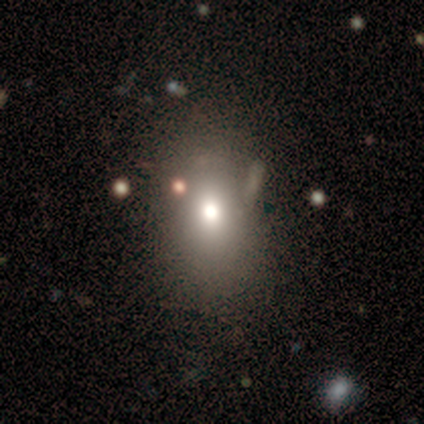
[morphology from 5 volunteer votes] Smooth or featured? smooth (60%)
How rounded? round (67%)
Merging? none (75%)